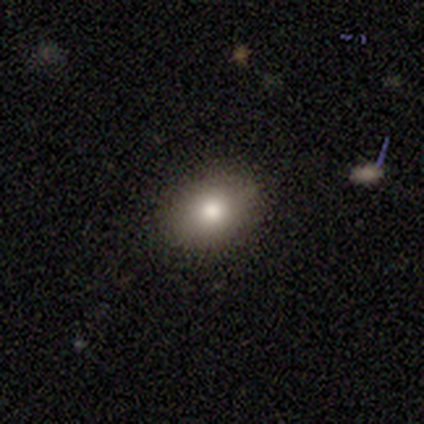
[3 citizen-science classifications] A smooth galaxy with no disk features (100%) that is in between round and cigar-shaped (100%).

Vote fractions:
- Smooth or featured? smooth: 100% / featured or disk: 0% / star or artifact: 0%
- How rounded? in between: 100% / round: 0% / cigar-shaped: 0%
- Merging? none: 67% / minor disturbance: 33% / major disturbance: 0% / merger: 0%